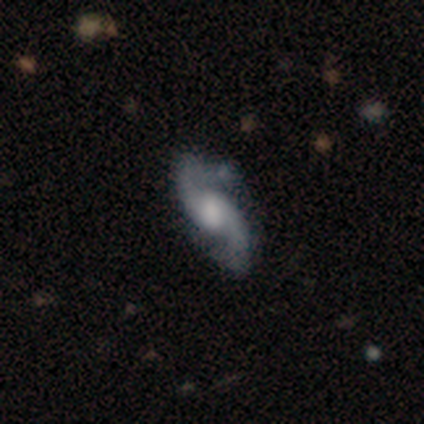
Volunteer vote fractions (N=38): Smooth or featured?
  - featured or disk: 89% *
  - star or artifact: 8%
  - smooth: 3%
Edge-on disk?
  - no: 97% *
  - yes: 3%
Bar?
  - no: 52% *
  - weak: 42%
  - strong: 6%
Spiral arms?
  - yes: 100% *
  - no: 0%
Spiral winding?
  - loose: 52% *
  - medium: 48%
  - tight: 0%
Spiral arm count?
  - 2: 100% *
  - 1: 0%
  - 3: 0%
  - 4: 0%
  - more than 4: 0%
  - can't tell: 0%
Bulge size?
  - moderate: 48% *
  - large: 21%
  - small: 15%
  - none: 9%
  - dominant: 6%
Merging?
  - none: 69% *
  - minor disturbance: 23%
  - merger: 6%
  - major disturbance: 3%